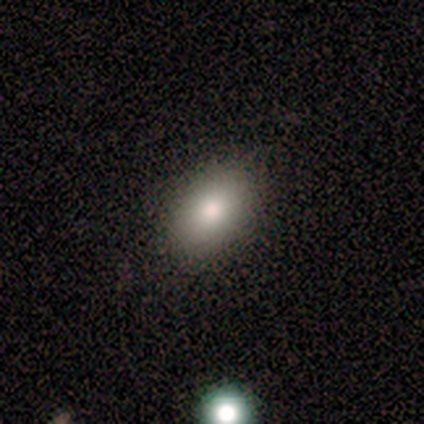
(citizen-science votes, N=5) This appears to be a smooth galaxy with no disk features (100%) that is in between round and cigar-shaped (100%). Merging: none (100%).